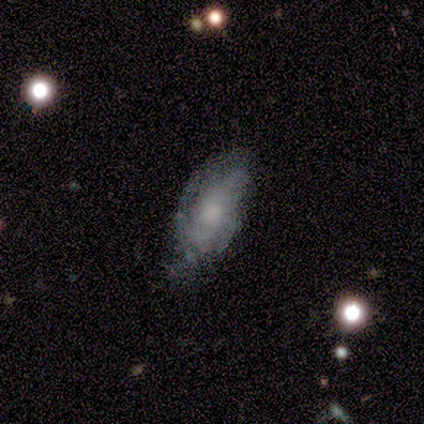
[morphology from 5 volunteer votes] Smooth or featured?
  - featured or disk: 60% *
  - smooth: 40%
  - star or artifact: 0%
Edge-on disk?
  - no: 100% *
  - yes: 0%
Bar?
  - no: 67% *
  - weak: 33%
  - strong: 0%
Spiral arms?
  - yes: 100% *
  - no: 0%
Spiral winding?
  - tight: 33% * (tied)
  - medium: 33% * (tied)
  - loose: 33% * (tied)
Spiral arm count?
  - 2: 67% *
  - can't tell: 33%
  - 1: 0%
  - 3: 0%
  - 4: 0%
  - more than 4: 0%
Bulge size?
  - moderate: 67% *
  - small: 33%
  - dominant: 0%
  - large: 0%
  - none: 0%
Merging?
  - none: 60% *
  - minor disturbance: 20%
  - major disturbance: 20%
  - merger: 0%